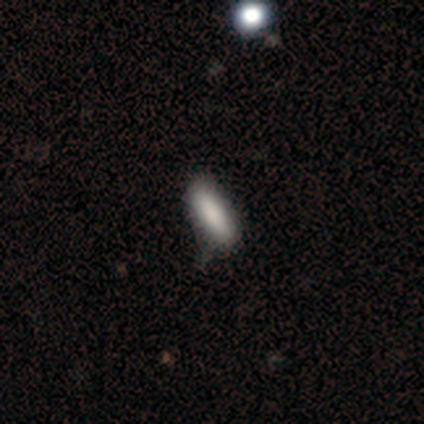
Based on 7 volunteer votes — Volunteers were most divided on "how rounded" (2-way tie): in between: 50%, cigar-shaped: 50%, round: 0%. More confident: smooth or featured — smooth (86%); merging — none (83%).